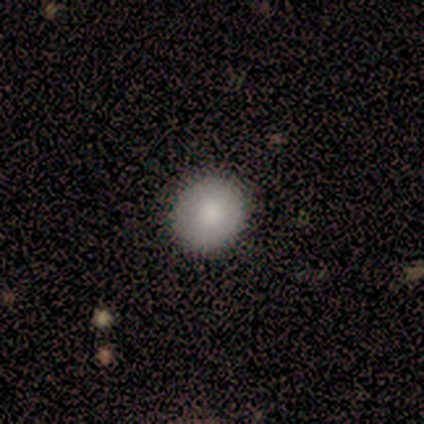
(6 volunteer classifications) This is clearly a smooth galaxy (100%). How rounded: clearly round (100%). Merging: clearly none (100%).